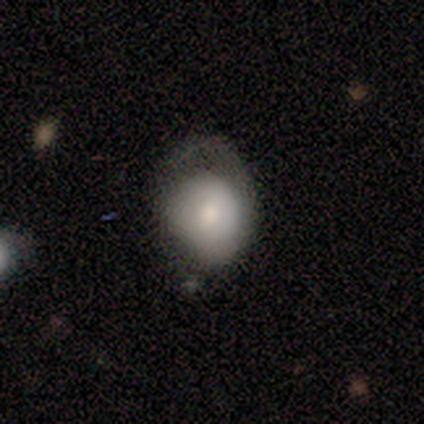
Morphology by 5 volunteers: type=smooth (60%); roundness=round (100%); merging=none (40%, tied with minor disturbance).